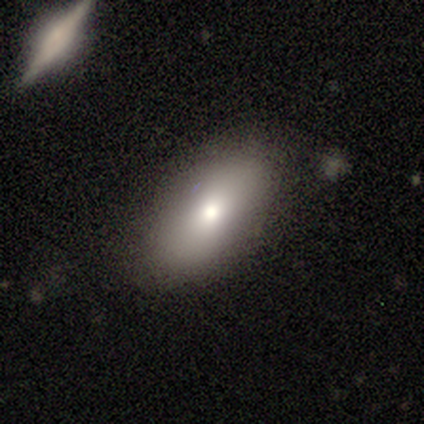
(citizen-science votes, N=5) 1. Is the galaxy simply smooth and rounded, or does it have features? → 80% smooth, 20% featured or disk, 0% star or artifact.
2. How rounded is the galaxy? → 100% in between, 0% round, 0% cigar-shaped.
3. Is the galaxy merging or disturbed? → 100% none, 0% minor disturbance, 0% major disturbance, 0% merger.